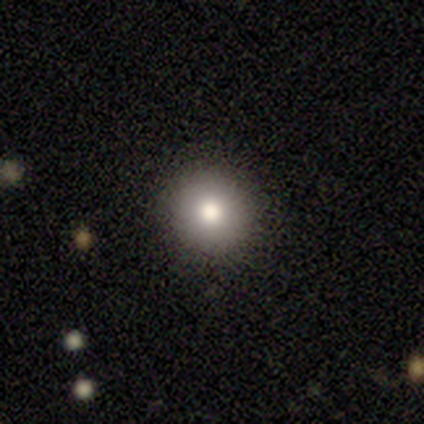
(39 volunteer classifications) Morphology: type=smooth (85%); roundness=round (97%); merging=none (91%).